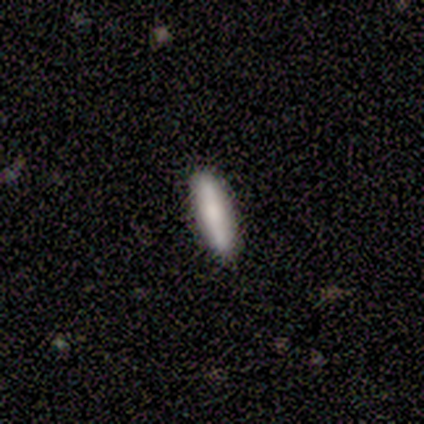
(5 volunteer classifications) Volunteers were most divided on "how rounded": cigar-shaped: 80%, in between: 20%, round: 0%. More confident: smooth or featured — smooth (100%); merging — none (100%).